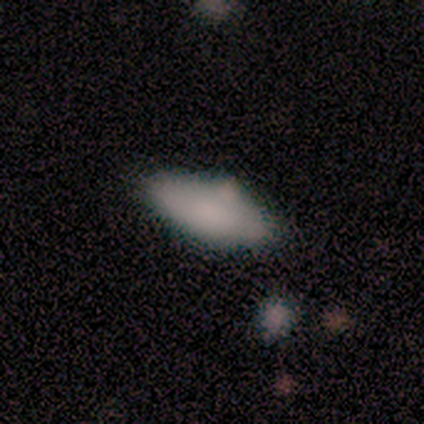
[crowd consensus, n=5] Smooth or featured? 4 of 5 (80%) said smooth. How rounded? 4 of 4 (100%) said in between. Merging? 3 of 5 (60%) said none.